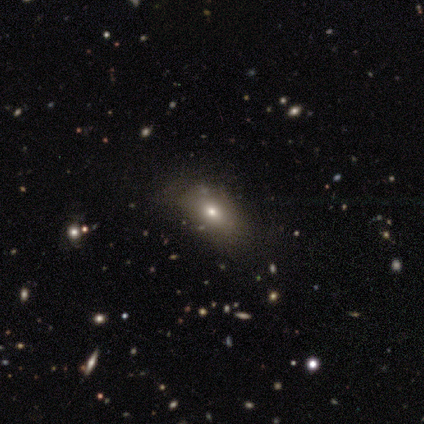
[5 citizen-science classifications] This appears to be a smooth galaxy with no disk features (80%) that is in between round and cigar-shaped (75%). Merging: none (40%, tied with minor disturbance).